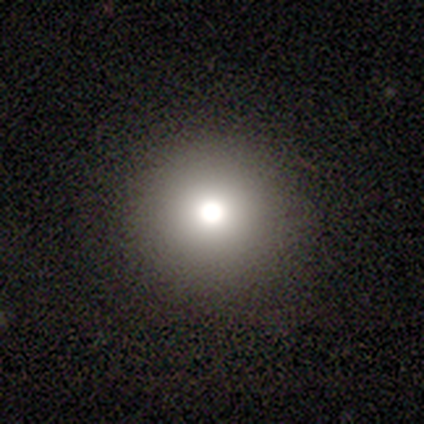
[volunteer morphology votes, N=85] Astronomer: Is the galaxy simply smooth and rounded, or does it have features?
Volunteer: smooth — 67%.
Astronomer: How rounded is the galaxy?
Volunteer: round — 95%.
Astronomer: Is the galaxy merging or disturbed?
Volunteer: none — 95%.